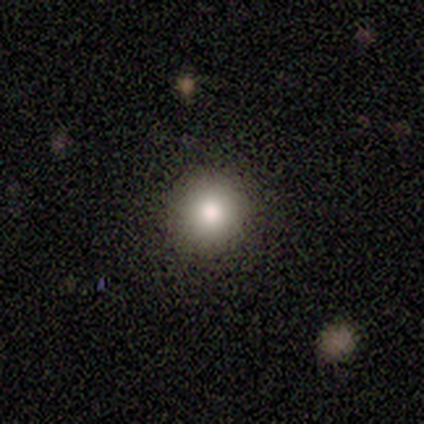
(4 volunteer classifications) Q: Smooth or featured?
A: smooth (75%); runner-up: featured or disk (25%)
Q: How rounded?
A: round (67%); runner-up: in between (33%)
Q: Merging?
A: none (100%)